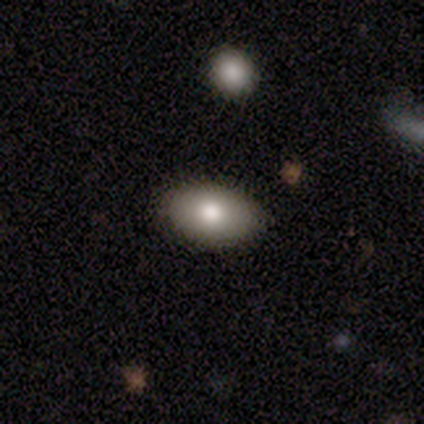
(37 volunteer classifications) Smooth or featured?
  - smooth: 78% *
  - featured or disk: 11%
  - star or artifact: 11%
How rounded?
  - in between: 97% *
  - round: 3%
  - cigar-shaped: 0%
Merging?
  - none: 85% *
  - minor disturbance: 15%
  - major disturbance: 0%
  - merger: 0%